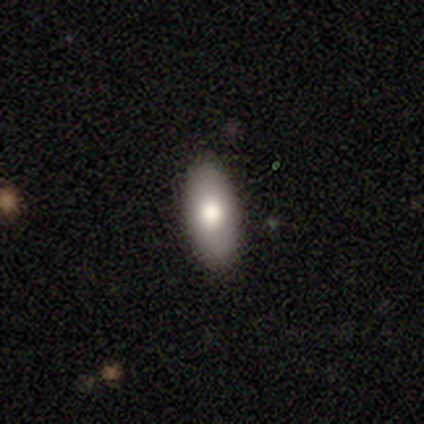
Overall: smooth (50%, tied with star or artifact). How rounded: in between (50%, tied with cigar-shaped). Merging: none (100%).